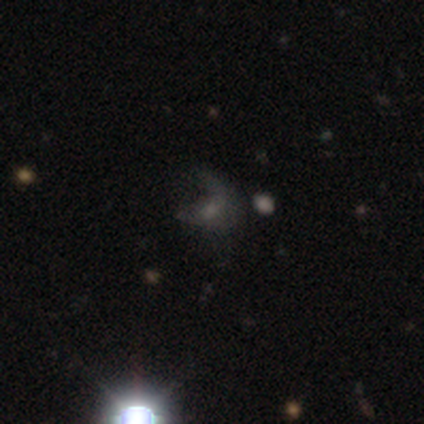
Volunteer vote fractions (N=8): A star or artifact, not a galaxy (50%).